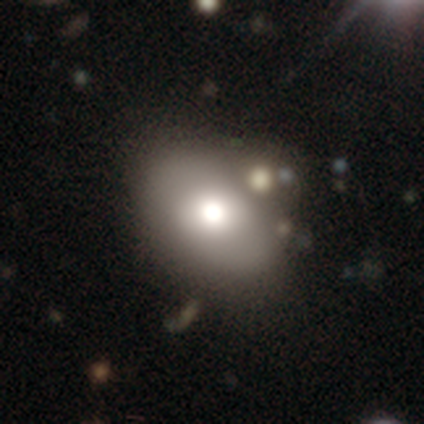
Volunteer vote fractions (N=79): Smooth or featured? 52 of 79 (66%) said smooth. How rounded? 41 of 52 (79%) said in between. Merging? 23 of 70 (33%) said none.